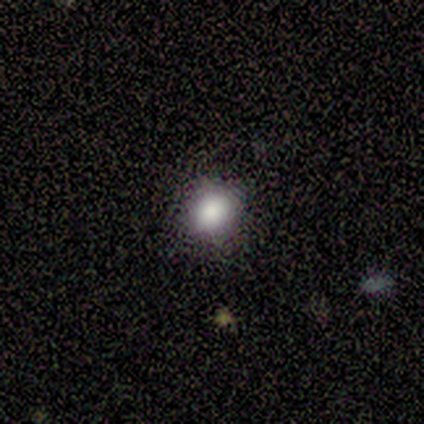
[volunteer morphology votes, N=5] Smooth or featured? smooth (100%)
How rounded? round (60%)
Merging? none (80%)